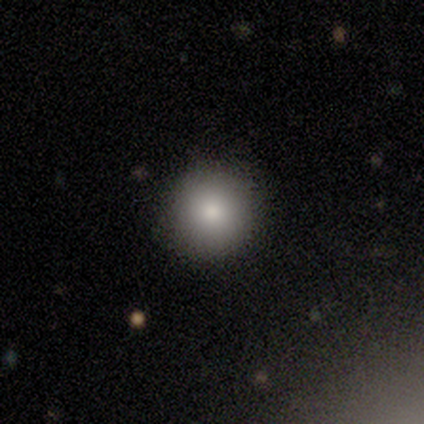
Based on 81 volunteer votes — Smooth or featured? 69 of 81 (85%) said smooth. How rounded? 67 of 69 (97%) said round. Merging? 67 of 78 (86%) said none.